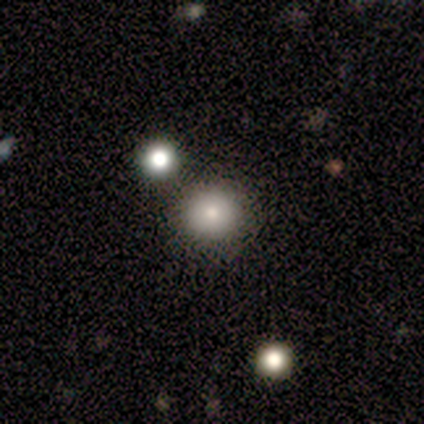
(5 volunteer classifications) smooth_or_featured: smooth (p=0.60) [alt: featured or disk p=0.20]
how_rounded: round (p=1.00)
merging: none (p=0.75) [alt: merger p=0.25]